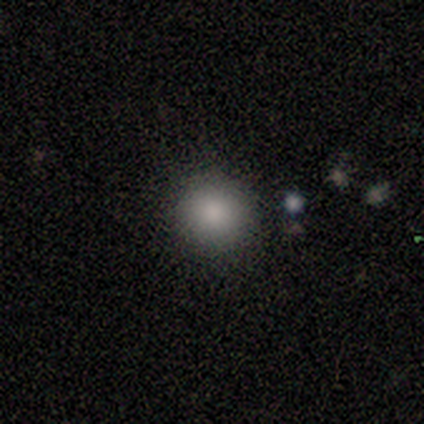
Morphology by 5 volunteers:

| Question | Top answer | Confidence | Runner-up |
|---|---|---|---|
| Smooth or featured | smooth | 100% | — |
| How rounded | round | 100% | — |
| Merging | none | 100% | — |